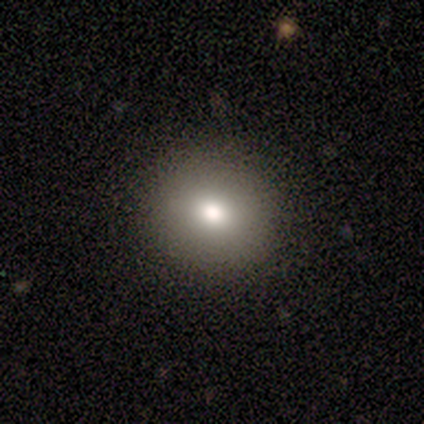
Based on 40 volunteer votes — Volunteers were most divided on "how rounded": round: 81%, in between: 19%, cigar-shaped: 0%. More confident: merging — none (95%); smooth or featured — smooth (80%).